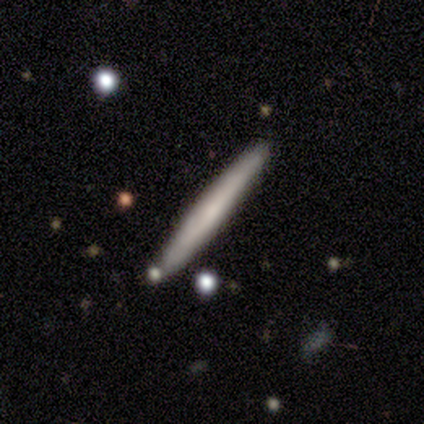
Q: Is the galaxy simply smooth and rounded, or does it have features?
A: smooth — 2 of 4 (50%).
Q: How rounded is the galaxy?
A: cigar-shaped — 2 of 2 (100%).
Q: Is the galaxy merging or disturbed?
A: none — 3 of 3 (100%).